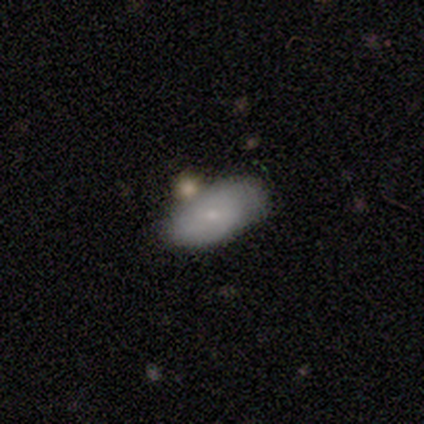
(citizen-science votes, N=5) A smooth galaxy with no disk features (60%) that is in between round and cigar-shaped (100%). Merging: none (50%).